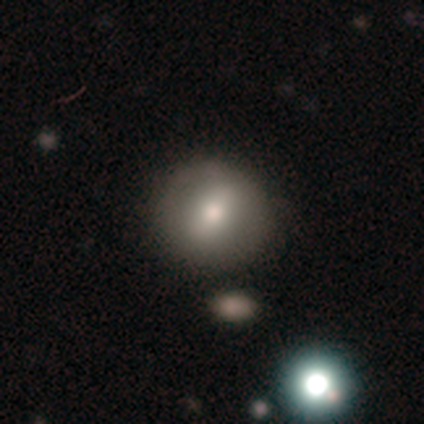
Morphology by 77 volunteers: Overall: smooth (68%). How rounded: round (92%). Merging: none (40%; merger 11%).